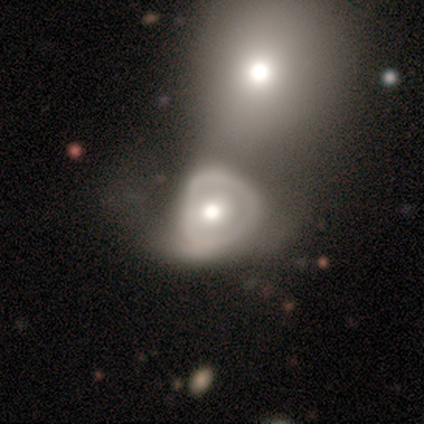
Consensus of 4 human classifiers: Smooth or featured? 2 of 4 (50%, tied with featured or disk) said smooth. How rounded? 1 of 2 (50%, tied with in between) said round. Merging? 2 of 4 (50%) said none.